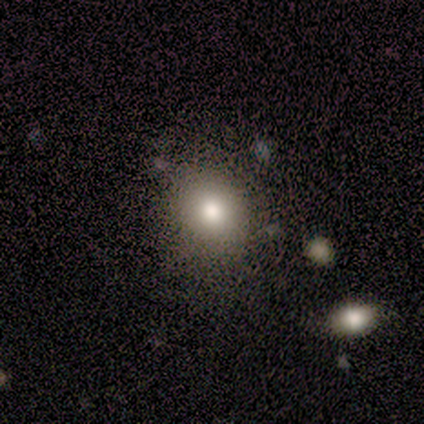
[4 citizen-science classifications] Q: Smooth or featured?
A: featured or disk (50%); runner-up: smooth (25%)
Q: Edge-on disk?
A: no (100%)
Q: Bar?
A: no (100%)
Q: Spiral arms?
A: no (100%)
Q: Bulge size?
A: moderate (100%)
Q: Merging?
A: minor disturbance (67%); runner-up: none (33%)